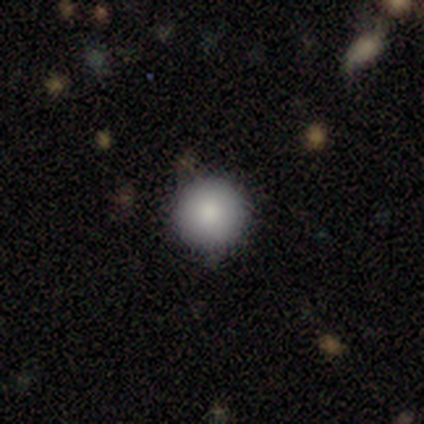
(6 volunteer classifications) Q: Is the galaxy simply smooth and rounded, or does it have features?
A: smooth — 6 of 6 (100%).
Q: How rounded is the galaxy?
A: round — 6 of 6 (100%).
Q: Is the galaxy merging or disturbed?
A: none — 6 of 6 (100%).